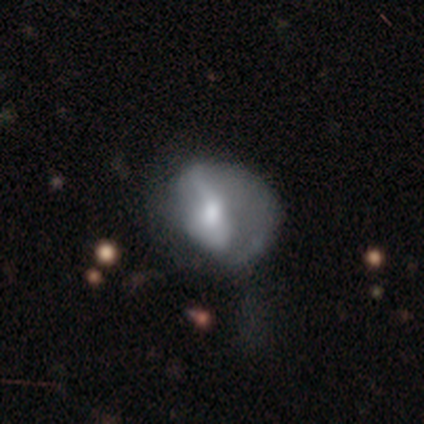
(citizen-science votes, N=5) Volunteers were most divided on "merging" (2-way tie): minor disturbance: 40%, major disturbance: 40%, none: 20%, merger: 0%. More confident: how rounded — in between (67%); smooth or featured — smooth (60%).